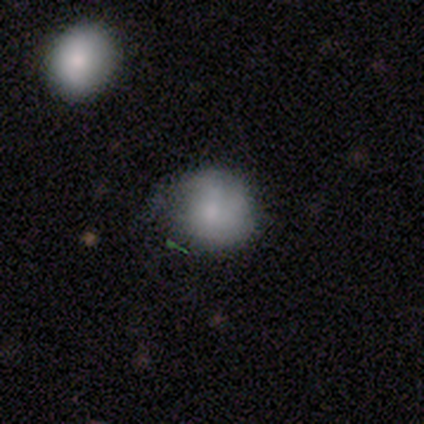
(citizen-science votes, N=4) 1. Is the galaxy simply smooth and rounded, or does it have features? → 100% smooth, 0% featured or disk, 0% star or artifact.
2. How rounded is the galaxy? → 75% round, 25% in between, 0% cigar-shaped.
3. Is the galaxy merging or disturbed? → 50% none, 25% minor disturbance, 25% major disturbance, 0% merger.